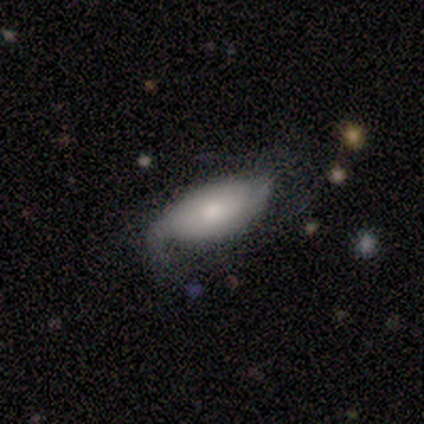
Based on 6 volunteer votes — Overall: featured or disk (67%; smooth 33%). Edge-on disk: no (100%). Bar: no (100%). Spiral arms: yes (100%). Spiral arm count: 2 (50%; 1 25%). Spiral winding: medium (50%; tight 25%). Bulge size: small (50%; large 25%). Merging: none (50%; major disturbance 33%).